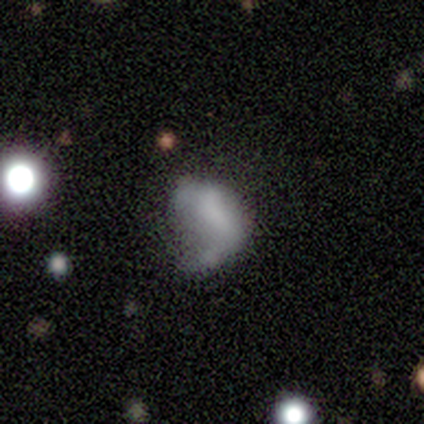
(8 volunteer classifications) Morphology: type=smooth (50%); roundness=in between (100%); merging=none (29%, tied with minor disturbance and major disturbance).